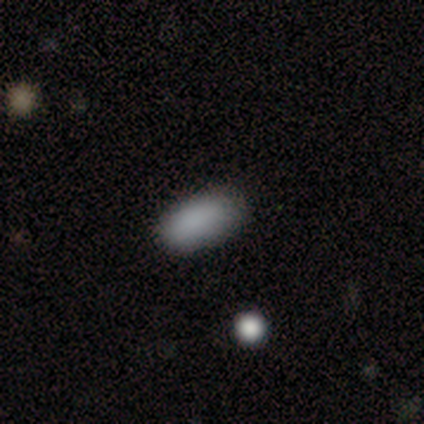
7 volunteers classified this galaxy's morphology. A smooth galaxy with no disk features (71%) that is in between round and cigar-shaped (100%). Merging: none (83%).